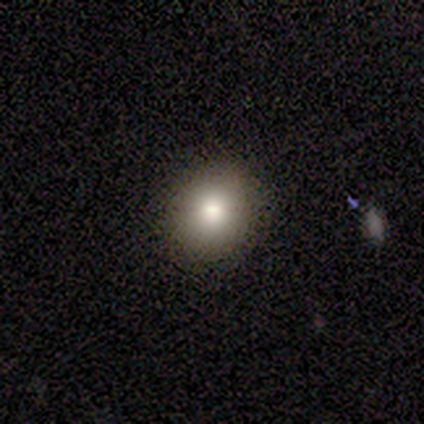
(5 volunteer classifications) Smooth or featured: smooth — 100%
How rounded: round — 60% (in between — 40%)
Merging: none — 100%